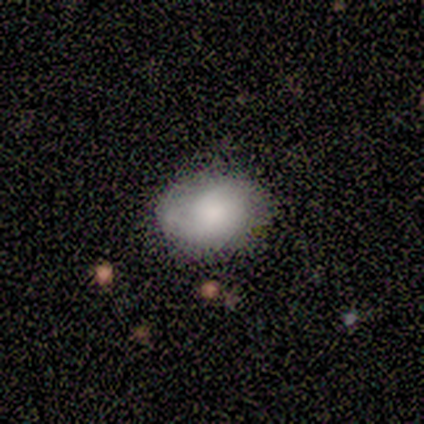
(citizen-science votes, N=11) A smooth galaxy with no disk features (64%) that is in between round and cigar-shaped (57%). Merging: none (82%).